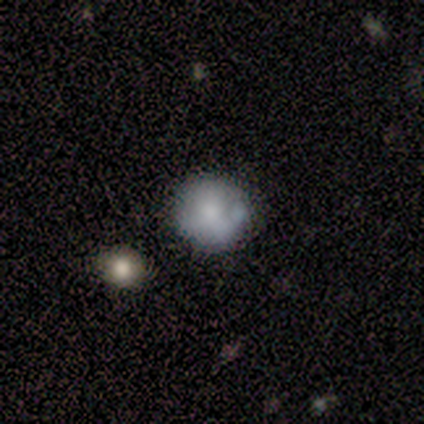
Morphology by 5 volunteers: type=smooth (80%); roundness=round (100%); merging=none (100%).